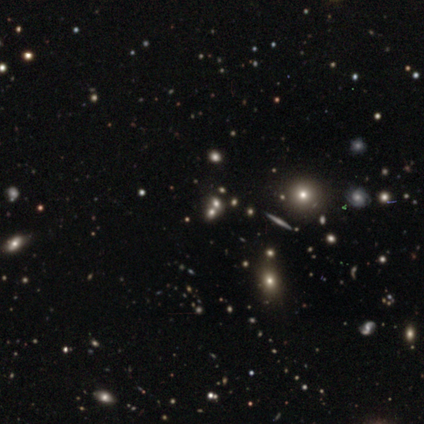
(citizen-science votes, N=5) This is likely a star or artifact rather than a galaxy (60%).